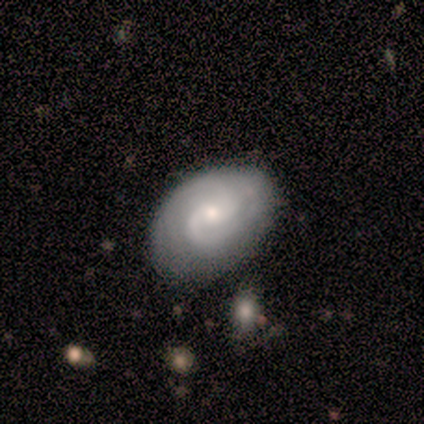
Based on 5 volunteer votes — Smooth or featured?
  - featured or disk: 100% *
  - smooth: 0%
  - star or artifact: 0%
Edge-on disk?
  - no: 100% *
  - yes: 0%
Bar?
  - no: 100% *
  - strong: 0%
  - weak: 0%
Spiral arms?
  - yes: 100% *
  - no: 0%
Spiral winding?
  - tight: 60% *
  - medium: 20%
  - loose: 20%
Spiral arm count?
  - 2: 40% *
  - 1: 20%
  - 3: 20%
  - can't tell: 20%
  - 4: 0%
  - more than 4: 0%
Bulge size?
  - small: 80% *
  - moderate: 20%
  - dominant: 0%
  - large: 0%
  - none: 0%
Merging?
  - none: 60% *
  - minor disturbance: 40%
  - major disturbance: 0%
  - merger: 0%